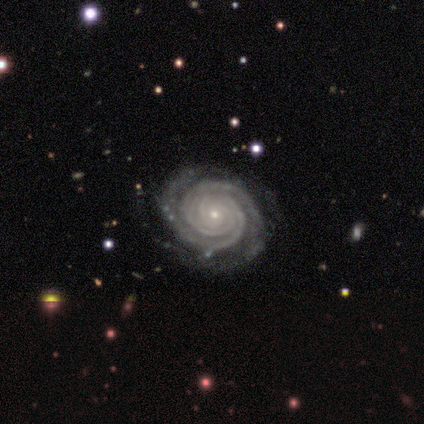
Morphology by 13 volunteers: A featured or disk galaxy (100%) with no bar (92%), 2 (46%) tight (100%) spiral arms (100%) and a small central bulge (77%). Merging: none (100%).